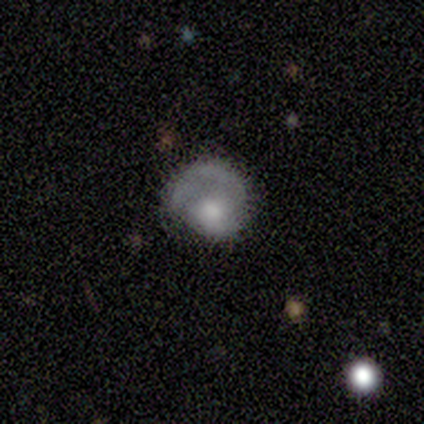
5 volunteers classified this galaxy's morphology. Q: Smooth or featured?
A: smooth (100%)
Q: How rounded?
A: round (60%); runner-up: in between (40%)
Q: Merging?
A: minor disturbance (40%); tied with: major disturbance (40%)